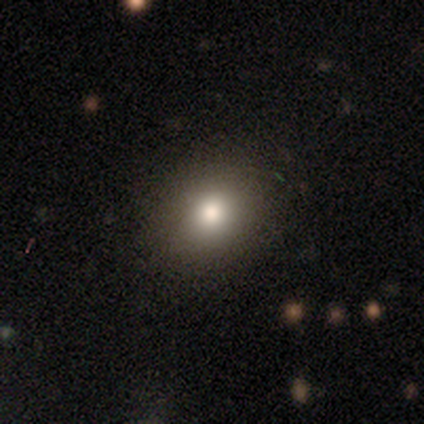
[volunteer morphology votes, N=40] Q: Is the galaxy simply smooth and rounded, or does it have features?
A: smooth — 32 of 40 (80%).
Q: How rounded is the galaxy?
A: round — 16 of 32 (50%, tied with in between).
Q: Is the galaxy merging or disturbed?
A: none — 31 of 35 (89%).